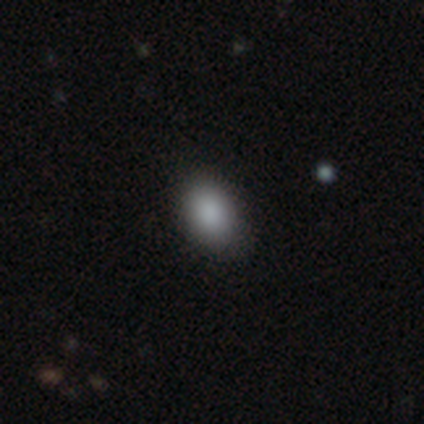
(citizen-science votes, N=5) Smooth or featured? 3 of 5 (60%) said smooth. How rounded? 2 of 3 (67%) said in between. Merging? 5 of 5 (100%) said none.